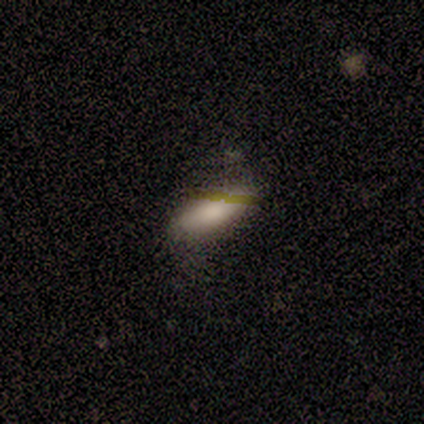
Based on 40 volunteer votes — A smooth galaxy with no disk features (75%) that is in between round and cigar-shaped (80%). Merging: none (62%).